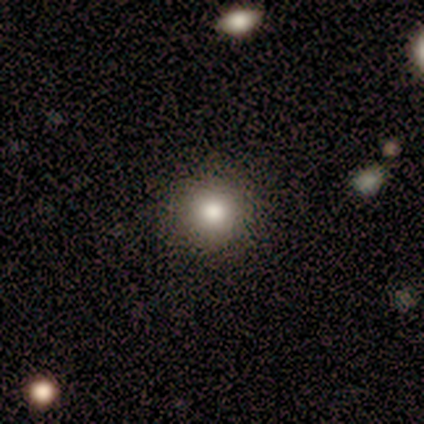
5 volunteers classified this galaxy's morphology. smooth-or-featured: smooth: 100% | featured or disk: 0% | star or artifact: 0%
  how-rounded: round: 100% | in between: 0% | cigar-shaped: 0%
  merging: none: 100% | minor disturbance: 0% | major disturbance: 0% | merger: 0%